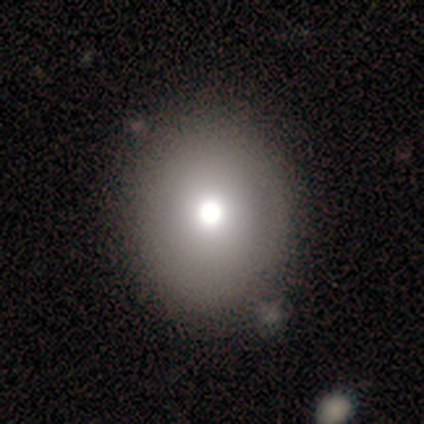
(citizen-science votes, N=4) Overall: smooth (75%). How rounded: round (67%; in between 33%). Merging: none (100%).